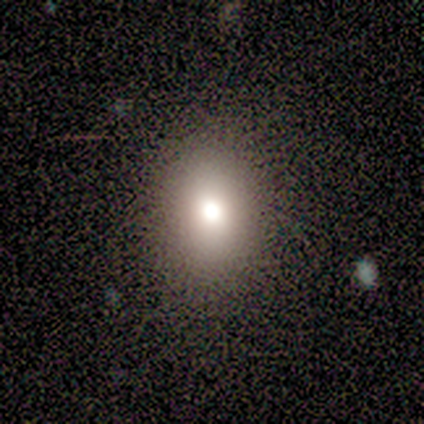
Morphology: type=smooth (82%); roundness=in between (65%); merging=none (77%).